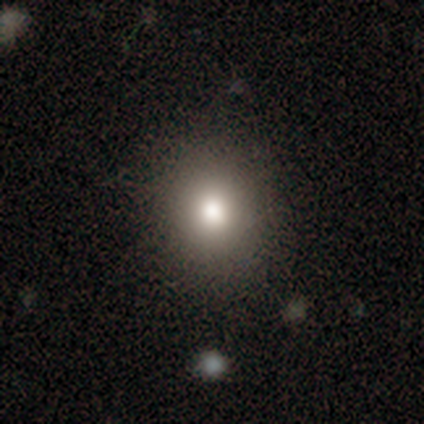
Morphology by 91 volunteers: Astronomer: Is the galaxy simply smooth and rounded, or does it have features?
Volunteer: smooth — 74%.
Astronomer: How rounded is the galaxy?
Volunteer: round — 90%.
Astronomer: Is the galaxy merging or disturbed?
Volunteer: none — 92%.